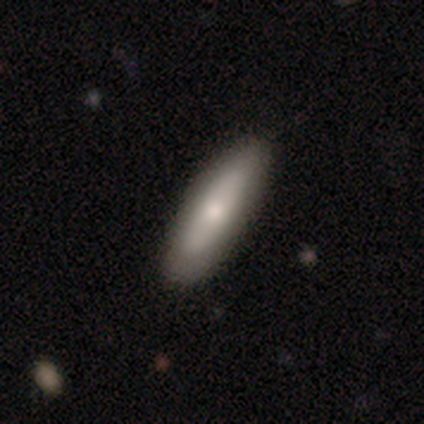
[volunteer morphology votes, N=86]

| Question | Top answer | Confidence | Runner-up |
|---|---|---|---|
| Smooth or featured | smooth | 59% | featured or disk (34%) |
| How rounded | cigar-shaped | 69% | in between (29%) |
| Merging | none | 84% | minor disturbance (12%) |